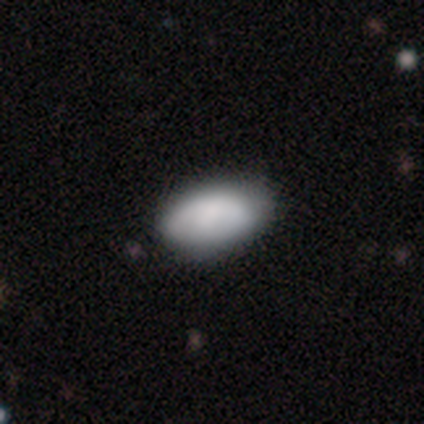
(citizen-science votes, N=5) A smooth galaxy with no disk features (80%) that is in between round and cigar-shaped (100%).

Vote fractions:
- Smooth or featured? smooth: 80% / star or artifact: 20% / featured or disk: 0%
- How rounded? in between: 100% / round: 0% / cigar-shaped: 0%
- Merging? none: 100% / minor disturbance: 0% / major disturbance: 0% / merger: 0%